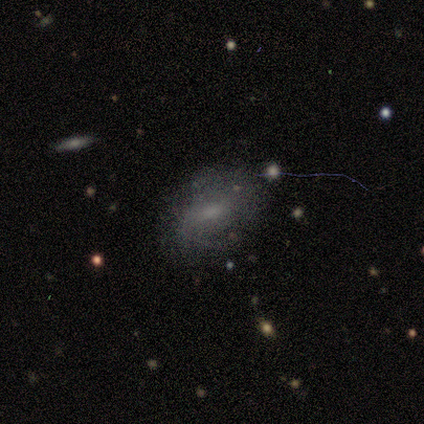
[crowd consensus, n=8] Smooth or featured? 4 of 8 (50%) said smooth. How rounded? 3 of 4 (75%) said in between. Merging? 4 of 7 (57%) said none.